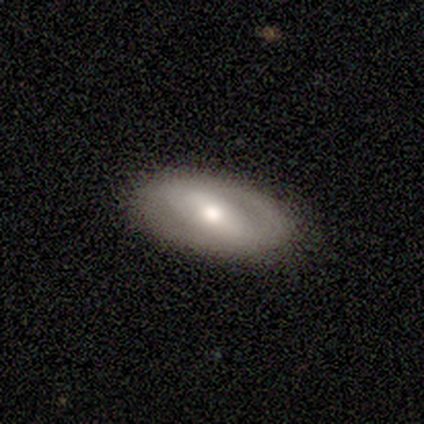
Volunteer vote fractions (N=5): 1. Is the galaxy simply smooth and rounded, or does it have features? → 60% featured or disk, 40% smooth, 0% star or artifact.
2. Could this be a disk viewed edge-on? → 100% no, 0% yes.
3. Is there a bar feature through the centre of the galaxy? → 33% strong (tied), 33% weak (tied), 33% no (tied).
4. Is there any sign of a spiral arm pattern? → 67% no, 33% yes.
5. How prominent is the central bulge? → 67% moderate, 33% small, 0% dominant, 0% large, 0% none.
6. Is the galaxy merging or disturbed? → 80% none, 20% minor disturbance, 0% major disturbance, 0% merger.